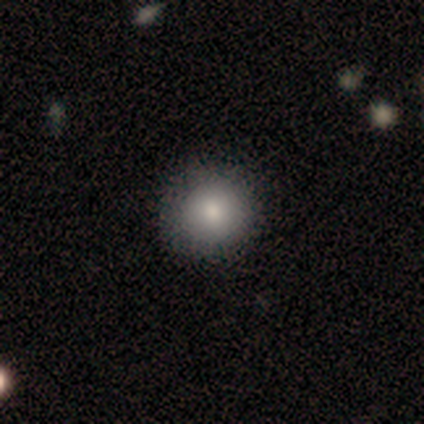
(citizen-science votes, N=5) Smooth or featured? 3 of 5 (60%) said smooth. How rounded? 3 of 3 (100%) said round. Merging? 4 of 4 (100%) said none.